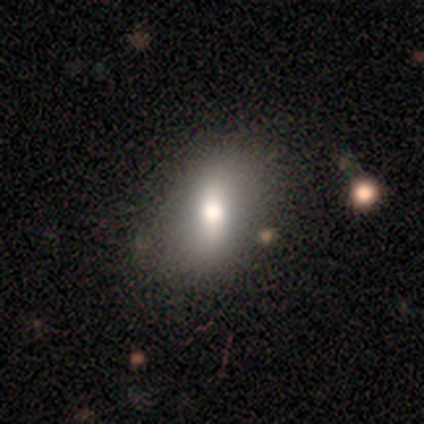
Smooth or featured?
  - featured or disk: 57% *
  - smooth: 29%
  - star or artifact: 14%
Edge-on disk?
  - no: 100% *
  - yes: 0%
Bar?
  - strong: 50% *
  - weak: 25%
  - no: 25%
Spiral arms?
  - yes: 50% * (tied)
  - no: 50% * (tied)
Spiral winding?
  - loose: 100% *
  - tight: 0%
  - medium: 0%
Spiral arm count?
  - 2: 100% *
  - 1: 0%
  - 3: 0%
  - 4: 0%
  - more than 4: 0%
  - can't tell: 0%
Bulge size?
  - large: 50% * (tied)
  - moderate: 50% * (tied)
  - dominant: 0%
  - small: 0%
  - none: 0%
Merging?
  - none: 83% *
  - merger: 17%
  - minor disturbance: 0%
  - major disturbance: 0%